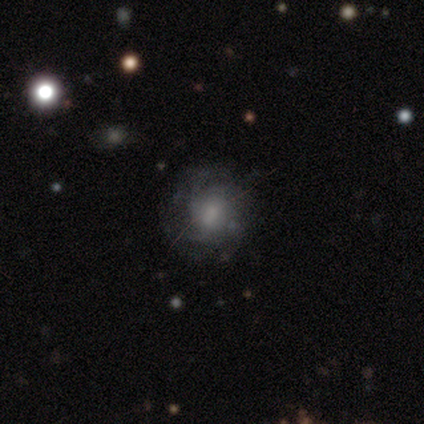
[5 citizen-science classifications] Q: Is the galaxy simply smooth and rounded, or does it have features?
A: smooth — 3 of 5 (60%).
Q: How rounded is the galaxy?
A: round — 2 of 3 (67%).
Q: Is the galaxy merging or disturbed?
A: none — 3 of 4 (75%).